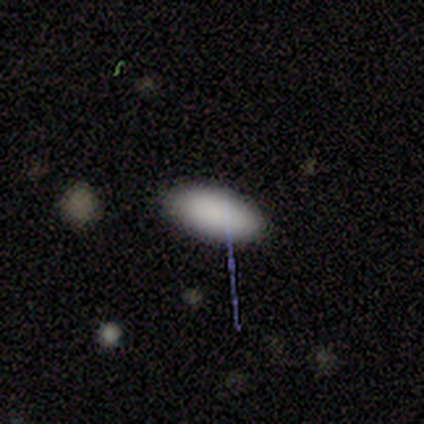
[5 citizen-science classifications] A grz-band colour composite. It shows a smooth galaxy with no disk features (60%) that is in between round and cigar-shaped (100%). Merging: none (100%).